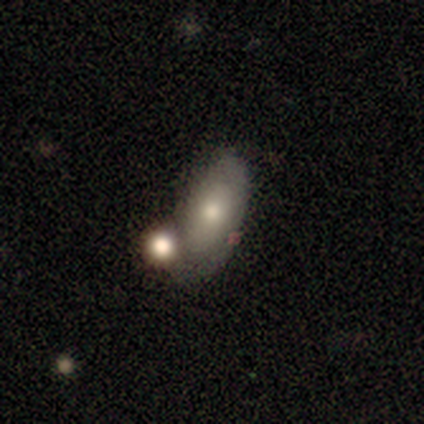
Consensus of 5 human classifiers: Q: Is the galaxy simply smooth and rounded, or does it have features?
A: smooth — 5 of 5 (100%).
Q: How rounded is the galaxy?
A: in between — 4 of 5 (80%).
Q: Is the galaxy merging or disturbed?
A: merger — 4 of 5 (80%).